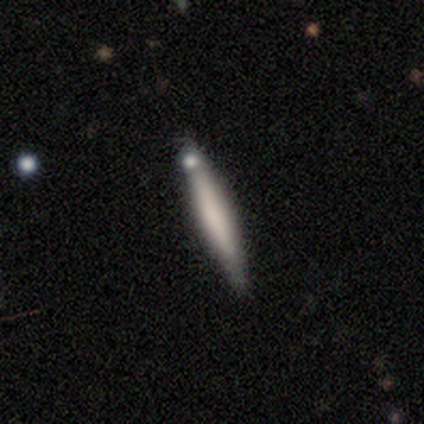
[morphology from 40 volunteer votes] This appears to be a smooth galaxy with no disk features (70%) that is cigar-shaped (86%). Merging: none (74%).